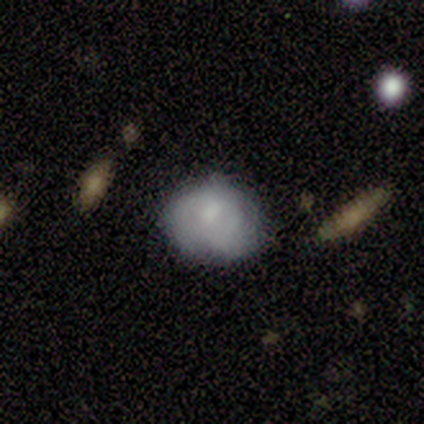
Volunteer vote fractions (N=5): Morphology: type=smooth (60%); roundness=round (67%); merging=none (80%).